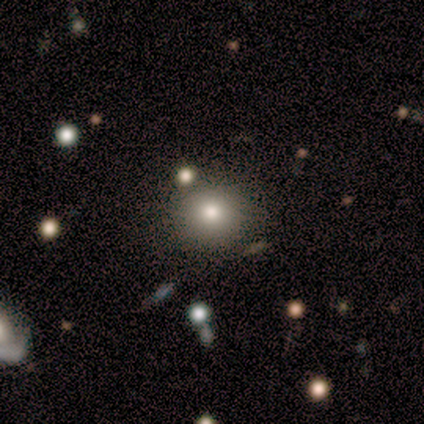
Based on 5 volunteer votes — smooth_or_featured: smooth (p=0.80) [alt: star or artifact p=0.20]
how_rounded: round (p=1.00)
merging: none (p=0.75) [alt: minor disturbance p=0.25]